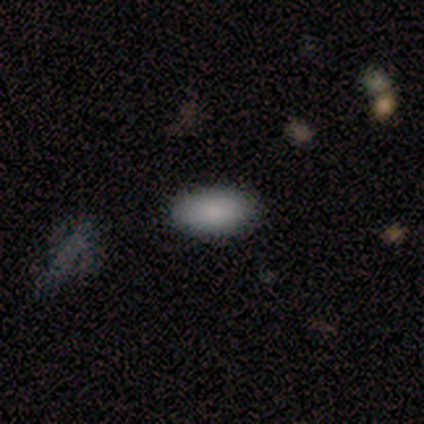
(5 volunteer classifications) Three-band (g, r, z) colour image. It shows a smooth galaxy with no disk features (100%) that is in between round and cigar-shaped (100%). Merging: none (100%).